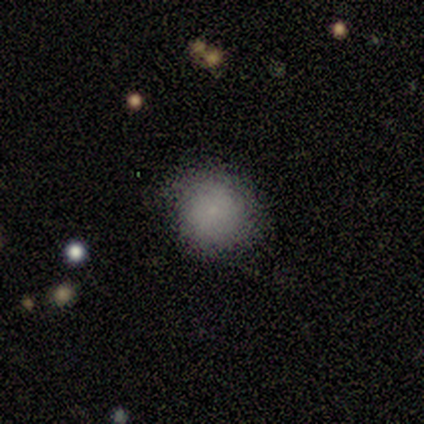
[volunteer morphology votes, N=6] smooth_or_featured: smooth (p=0.67) [alt: featured or disk p=0.17]
how_rounded: round (p=0.75) [alt: in between p=0.25]
merging: none (p=0.60) [alt: minor disturbance p=0.20]